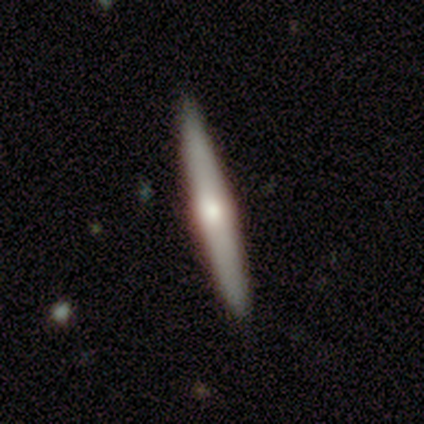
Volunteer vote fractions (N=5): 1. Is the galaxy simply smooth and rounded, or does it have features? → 60% featured or disk, 40% smooth, 0% star or artifact.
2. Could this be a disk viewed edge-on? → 100% yes, 0% no.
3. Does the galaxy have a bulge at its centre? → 100% rounded, 0% boxy, 0% none.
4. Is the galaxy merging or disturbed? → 100% none, 0% minor disturbance, 0% major disturbance, 0% merger.